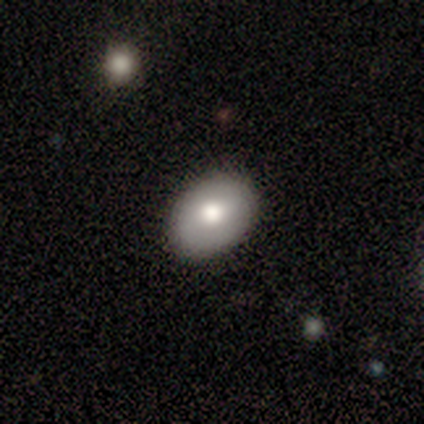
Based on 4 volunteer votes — smooth-or-featured: smooth: 75% | featured or disk: 25% | star or artifact: 0%
  how-rounded: in between: 67% | round: 33% | cigar-shaped: 0%
  merging: none: 100% | minor disturbance: 0% | major disturbance: 0% | merger: 0%